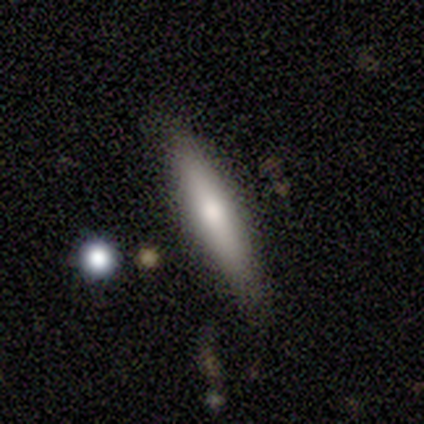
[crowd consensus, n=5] smooth-or-featured: smooth: 60% | featured or disk: 40% | star or artifact: 0%
  how-rounded: cigar-shaped: 100% | round: 0% | in between: 0%
  merging: none: 80% | minor disturbance: 20% | major disturbance: 0% | merger: 0%